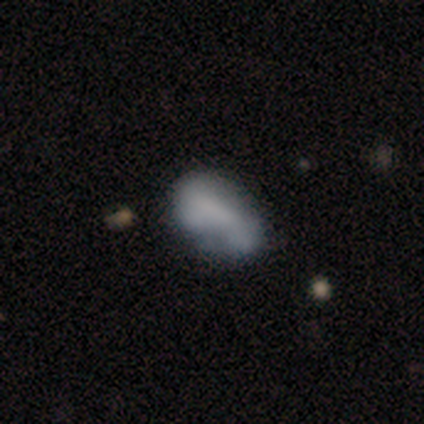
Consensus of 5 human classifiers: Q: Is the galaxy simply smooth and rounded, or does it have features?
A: smooth — 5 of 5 (100%).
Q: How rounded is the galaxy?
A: in between — 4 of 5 (80%).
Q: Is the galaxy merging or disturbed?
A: none — 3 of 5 (60%).